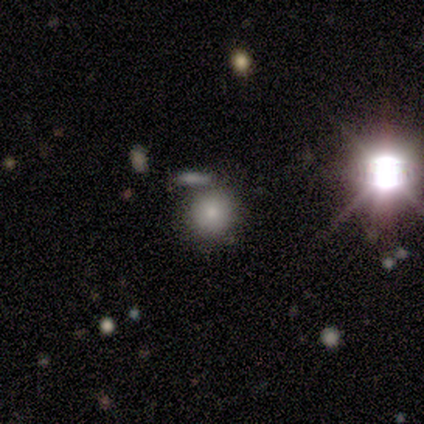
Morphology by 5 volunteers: Q: Smooth or featured?
A: smooth (100%)
Q: How rounded?
A: round (60%); runner-up: in between (40%)
Q: Merging?
A: minor disturbance (40%); tied with: merger (40%)